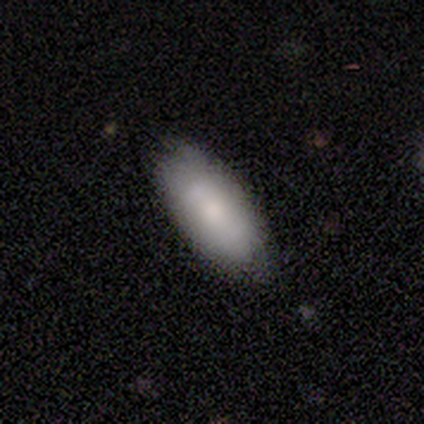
Morphology: type=smooth (74%); roundness=in between (93%); merging=none (72%).